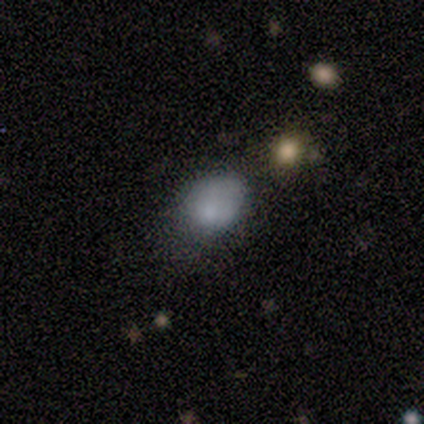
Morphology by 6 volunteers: smooth 67%, featured or disk 17%, star or artifact 17%. Down the decision tree: how rounded — round (75%); merging — none (80%).